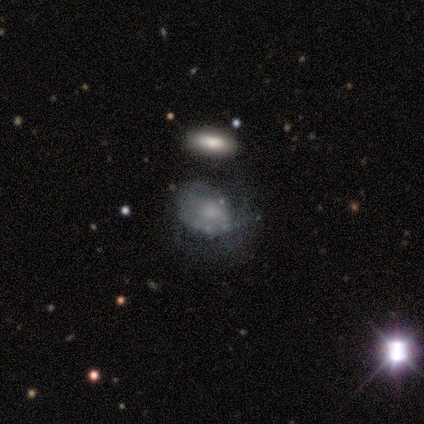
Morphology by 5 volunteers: Smooth or featured?
  - smooth: 60% *
  - featured or disk: 40%
  - star or artifact: 0%
How rounded?
  - in between: 67% *
  - cigar-shaped: 33%
  - round: 0%
Merging?
  - none: 40% * (tied)
  - major disturbance: 40% * (tied)
  - minor disturbance: 20%
  - merger: 0%